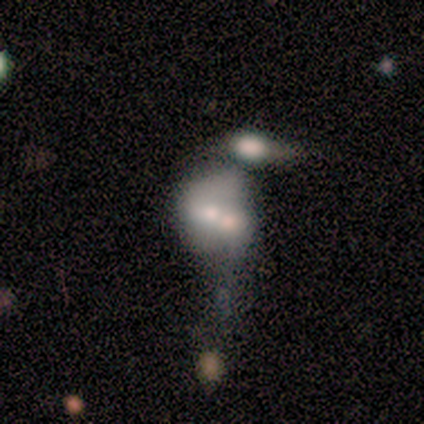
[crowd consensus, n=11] featured or disk 55%, smooth 36%, star or artifact 9%. Down the decision tree: edge-on disk — no (67%); bar — no (100%); spiral arms — no (100%); bulge size — moderate (75%); merging — merger (70%).